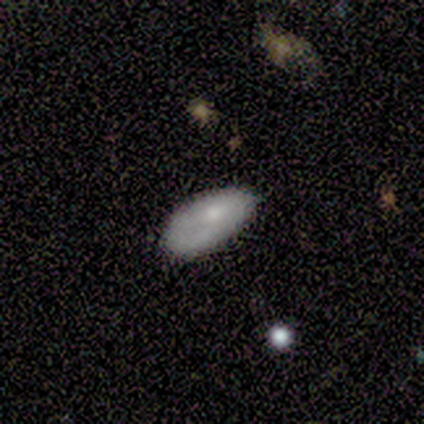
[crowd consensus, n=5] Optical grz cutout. It shows a smooth galaxy with no disk features (80%) that is in between round and cigar-shaped (75%). Merging: none (60%).